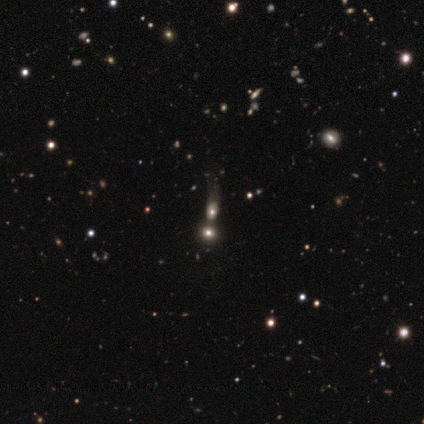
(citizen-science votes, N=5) This appears to be a smooth galaxy with no disk features (40%, tied with star or artifact) that is round (50%, tied with in between). Merging: merger (100%).